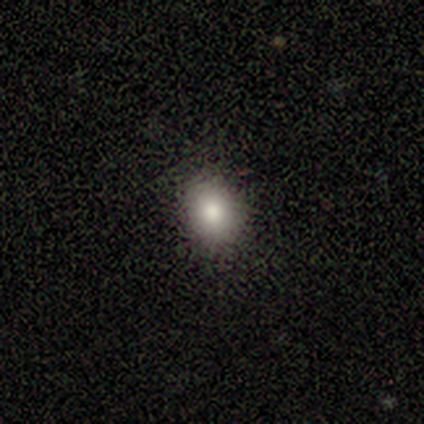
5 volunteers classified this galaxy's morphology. smooth 80%, featured or disk 20%, star or artifact 0%. Down the decision tree: how rounded — in between (75%); merging — none (80%).